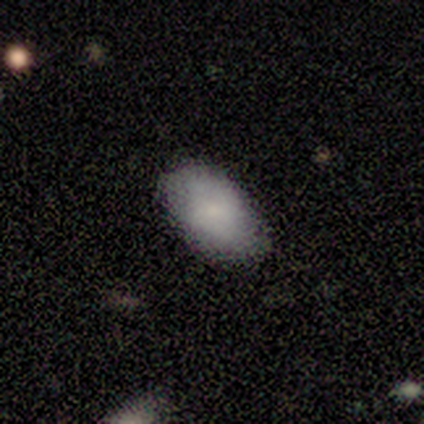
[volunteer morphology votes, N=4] smooth-or-featured: smooth: 100% | featured or disk: 0% | star or artifact: 0%
  how-rounded: in between: 75% | round: 25% | cigar-shaped: 0%
  merging: none: 100% | minor disturbance: 0% | major disturbance: 0% | merger: 0%